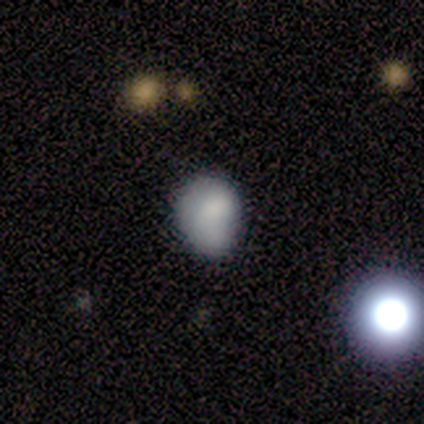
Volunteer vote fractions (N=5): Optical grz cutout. It shows a smooth galaxy with no disk features (100%) that is in between round and cigar-shaped (60%). Merging: none (80%).